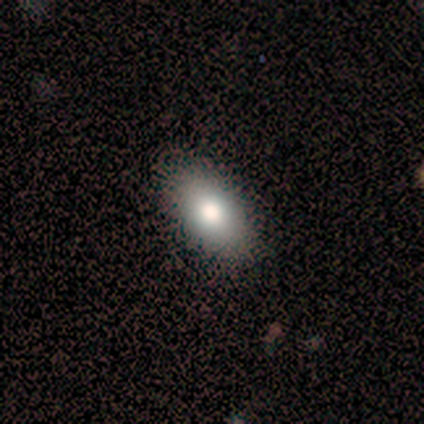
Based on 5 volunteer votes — A smooth galaxy with no disk features (60%) that is in between round and cigar-shaped (100%).

Vote fractions:
- Smooth or featured? smooth: 60% / featured or disk: 20% / star or artifact: 20%
- How rounded? in between: 100% / round: 0% / cigar-shaped: 0%
- Merging? none: 100% / minor disturbance: 0% / major disturbance: 0% / merger: 0%